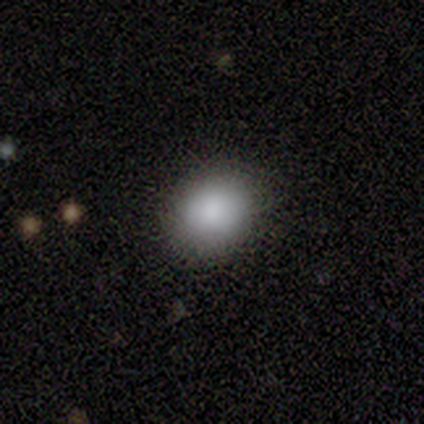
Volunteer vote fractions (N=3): Smooth or featured: smooth — 100%
How rounded: in between — 67% (round — 33%)
Merging: none — 100%